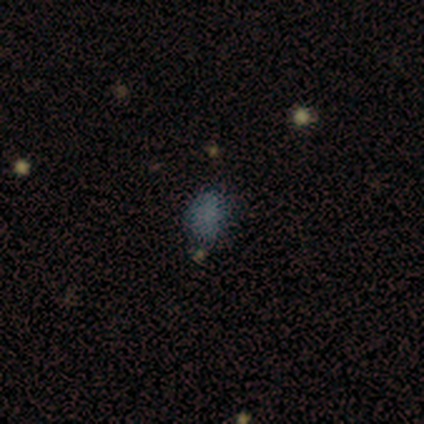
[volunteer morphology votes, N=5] smooth-or-featured: smooth: 60% | featured or disk: 20% | star or artifact: 20%
  how-rounded: in between: 100% | round: 0% | cigar-shaped: 0%
  merging: minor disturbance: 75% | none: 25% | major disturbance: 0% | merger: 0%